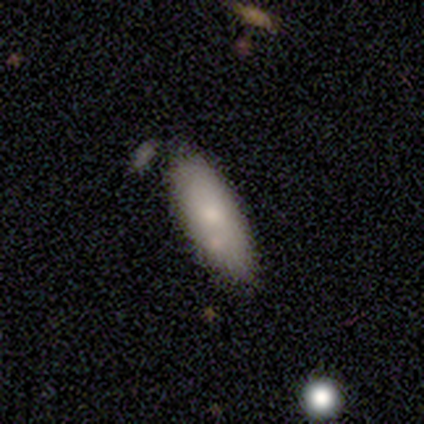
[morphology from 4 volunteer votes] A smooth galaxy with no disk features (75%) that is in between round and cigar-shaped (67%).

Vote fractions:
- Smooth or featured? smooth: 75% / featured or disk: 25% / star or artifact: 0%
- How rounded? in between: 67% / cigar-shaped: 33% / round: 0%
- Merging? none: 50% / minor disturbance: 25% / major disturbance: 25% / merger: 0%